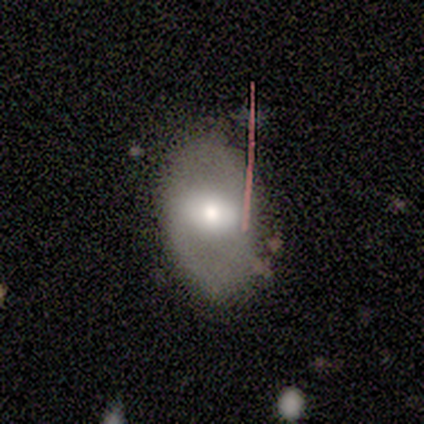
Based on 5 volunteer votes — This is marginally a featured or disk galaxy (40%, tied with star or artifact). It is clearly not viewed edge-on (100%). Bar: possibly strong (50%, tied with weak). Spiral arm pattern: clearly no (100%). Central bulge: clearly moderate (100%). Merging: clearly none (100%).